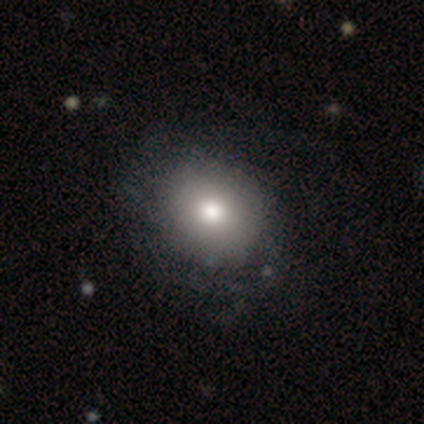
This is clearly a smooth galaxy (82%). How rounded: possibly in between (56%). Merging: possibly none (50%).